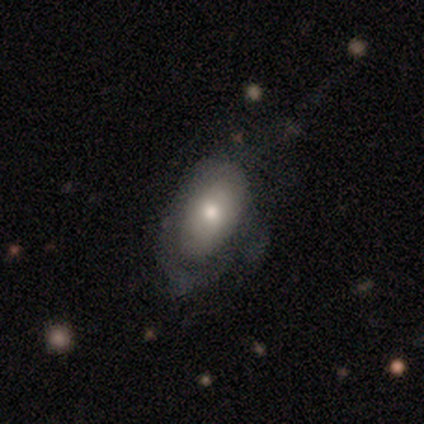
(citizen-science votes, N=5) Smooth or featured: smooth — 80% (featured or disk — 20%)
How rounded: in between — 100%
Merging: minor disturbance — 60% (none — 40%)